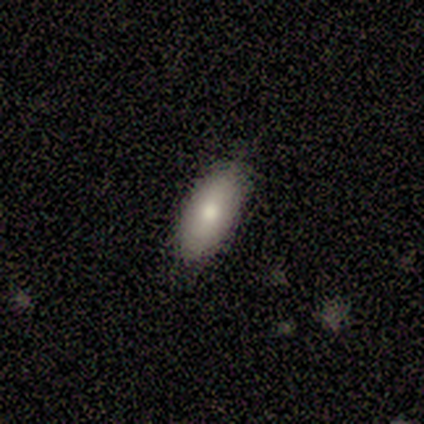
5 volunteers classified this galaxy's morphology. Q: Smooth or featured?
A: smooth (80%); runner-up: featured or disk (20%)
Q: How rounded?
A: in between (100%)
Q: Merging?
A: none (100%)